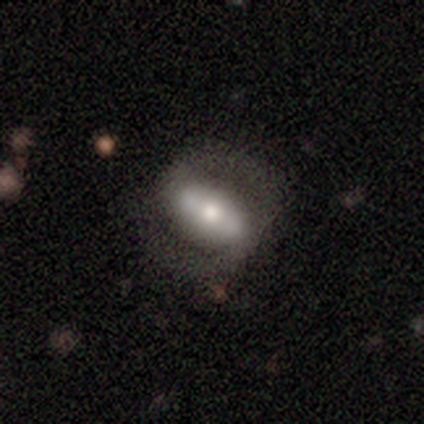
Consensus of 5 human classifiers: Volunteers were most divided on "how rounded": in between: 50%, round: 25%, cigar-shaped: 25%. More confident: smooth or featured — smooth (80%); merging — none (60%).